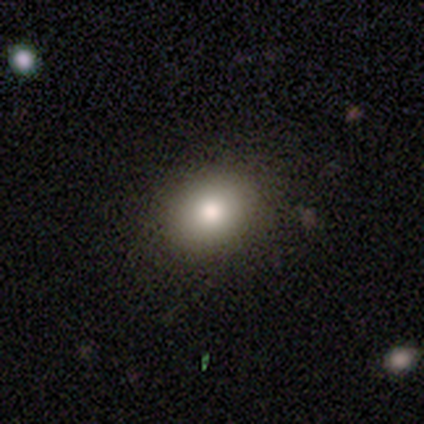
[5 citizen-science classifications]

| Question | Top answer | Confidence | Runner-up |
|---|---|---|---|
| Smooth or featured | smooth | 100% | — |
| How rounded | in between | 60% | round (40%) |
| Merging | none | 100% | — |